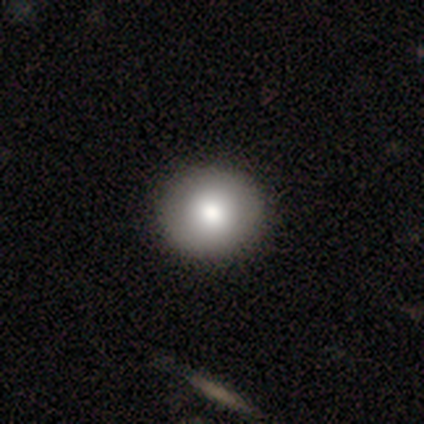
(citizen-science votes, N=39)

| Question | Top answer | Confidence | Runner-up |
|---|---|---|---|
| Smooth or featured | smooth | 59% | featured or disk (36%) |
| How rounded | round | 83% | in between (17%) |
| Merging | none | 68% | — |